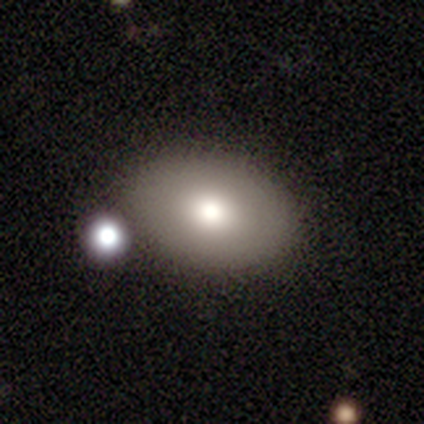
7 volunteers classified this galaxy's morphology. smooth_or_featured: smooth (p=0.86) [alt: star or artifact p=0.14]
how_rounded: in between (p=0.67) [alt: round p=0.33]
merging: none (p=0.67) [alt: merger p=0.33]